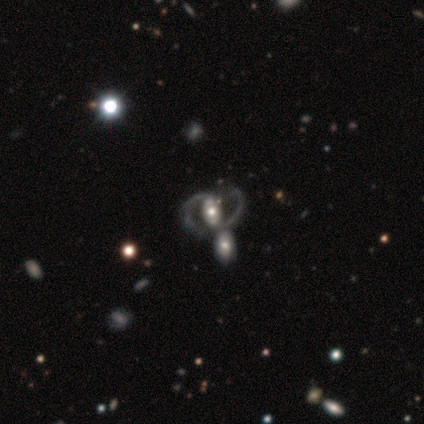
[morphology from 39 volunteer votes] Volunteers were most divided on "bar" (2-way tie): strong: 41%, no: 41%, weak: 19%. Remaining: edge-on disk — no (97%); smooth or featured — featured or disk (85%); spiral arm count — 2 (83%); spiral arms — yes (75%); bulge size — moderate (75%); spiral winding — medium (62%); merging — none (42%).